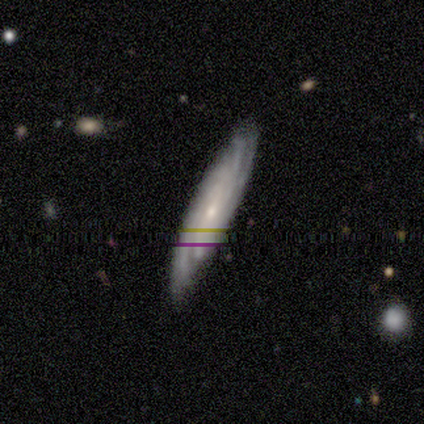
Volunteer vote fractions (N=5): This appears to be a smooth galaxy with no disk features (60%) that is cigar-shaped (100%). Merging: none (60%).